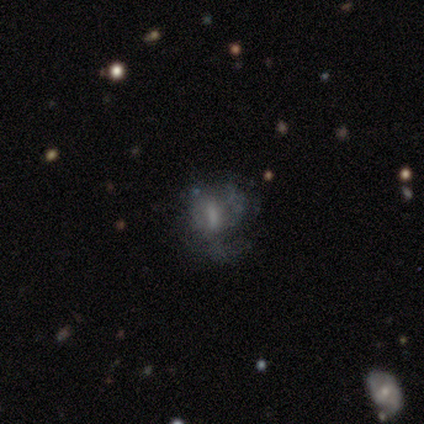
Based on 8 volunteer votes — Morphology: type=smooth (62%); roundness=in between (80%); merging=minor disturbance (43%, tied with major disturbance).